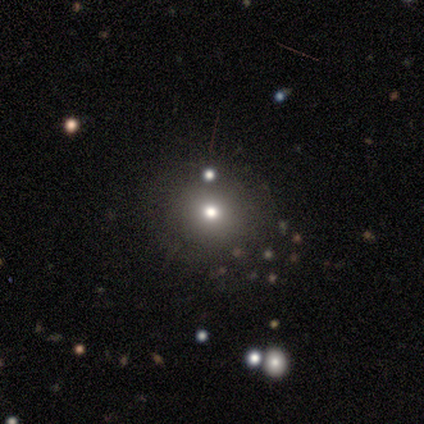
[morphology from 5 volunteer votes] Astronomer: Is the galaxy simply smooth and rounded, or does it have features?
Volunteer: smooth — 80%.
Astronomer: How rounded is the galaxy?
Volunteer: round — 100%.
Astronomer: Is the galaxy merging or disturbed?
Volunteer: none — 75%.